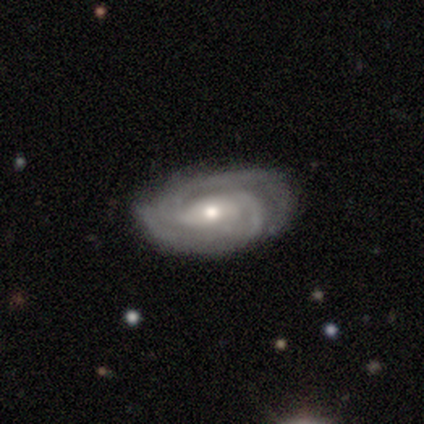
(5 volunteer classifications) This appears to be a featured or disk galaxy (100%) with a weak bar (50%, tied with no), 2 (100%) tight (33%, tied with medium and loose) spiral arms (75%) and a moderate central bulge (75%). Merging: none (80%).